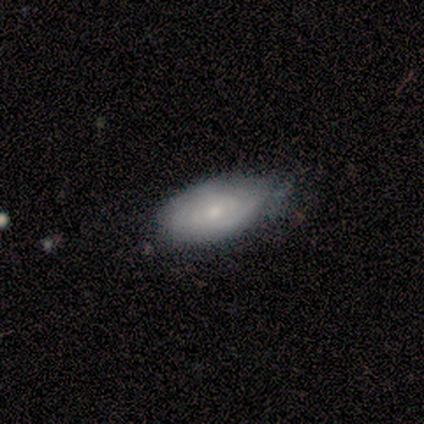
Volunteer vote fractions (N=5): Smooth or featured: featured or disk — 100%
Edge-on disk: no — 80% (yes — 20%)
Bar: weak — 75% (no — 25%)
Spiral arms: yes — 100%
Spiral winding: tight — 50% (tied with medium — 50%)
Spiral arm count: can't tell — 75% (2 — 25%)
Bulge size: small — 75% (moderate — 25%)
Merging: none — 80% (minor disturbance — 20%)